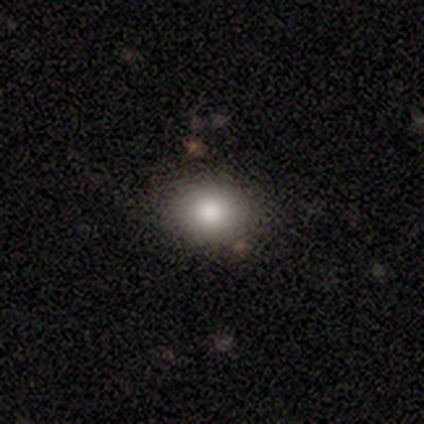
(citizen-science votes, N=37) smooth_or_featured: smooth (p=0.89) [alt: featured or disk p=0.08]
how_rounded: round (p=0.55) [alt: in between p=0.45]
merging: none (p=0.86) [alt: minor disturbance p=0.08]